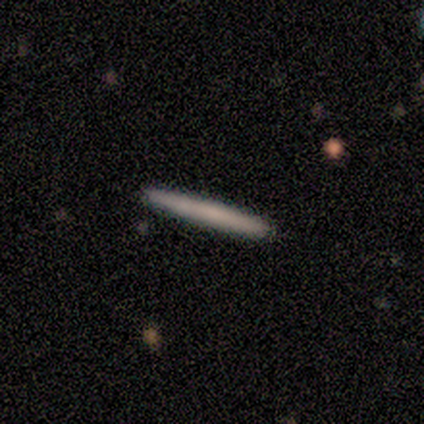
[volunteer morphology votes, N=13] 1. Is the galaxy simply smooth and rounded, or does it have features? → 69% smooth, 31% featured or disk, 0% star or artifact.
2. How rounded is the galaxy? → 100% cigar-shaped, 0% round, 0% in between.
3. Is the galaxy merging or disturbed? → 100% none, 0% minor disturbance, 0% major disturbance, 0% merger.